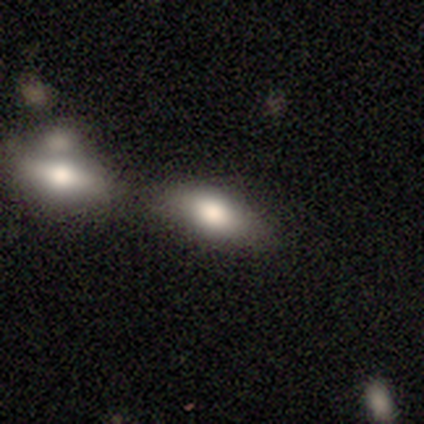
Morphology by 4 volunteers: Smooth or featured?
  - smooth: 100% *
  - featured or disk: 0%
  - star or artifact: 0%
How rounded?
  - in between: 100% *
  - round: 0%
  - cigar-shaped: 0%
Merging?
  - merger: 50% *
  - none: 25%
  - minor disturbance: 25%
  - major disturbance: 0%